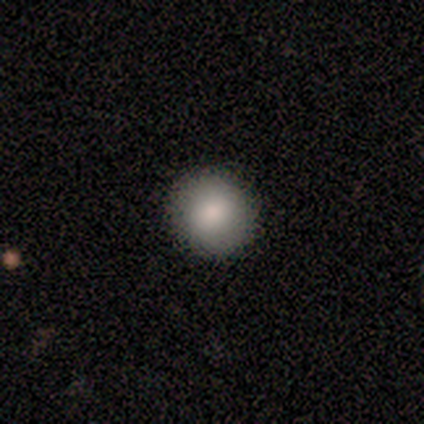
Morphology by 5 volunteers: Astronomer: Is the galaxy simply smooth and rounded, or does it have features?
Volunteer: smooth — 80%.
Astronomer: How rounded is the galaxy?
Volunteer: round — 100%.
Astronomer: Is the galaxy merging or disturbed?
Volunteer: none — 100%.